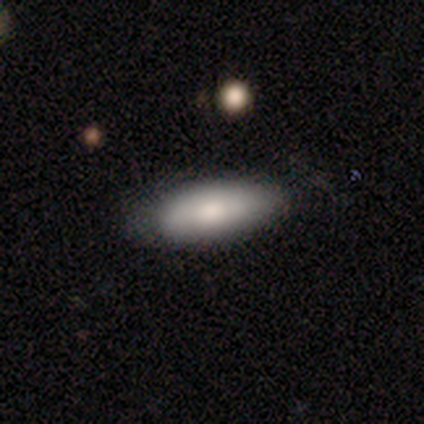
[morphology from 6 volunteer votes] This is clearly a smooth galaxy (100%). How rounded: possibly cigar-shaped (50%). Merging: likely none (67%).